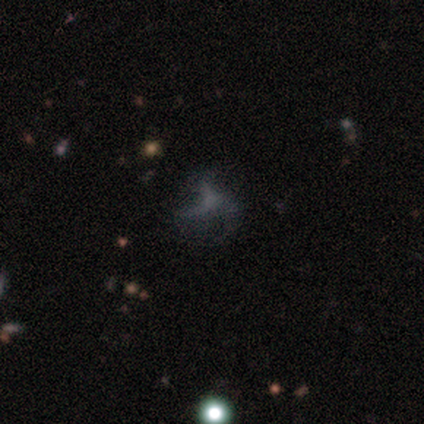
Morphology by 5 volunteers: Overall: featured or disk (80%). Edge-on disk: no (100%). Bar: no (100%). Spiral arms: yes (100%). Spiral arm count: 3 (100%). Spiral winding: loose (75%). Bulge size: none (75%). Merging: none (50%; minor disturbance 25%).